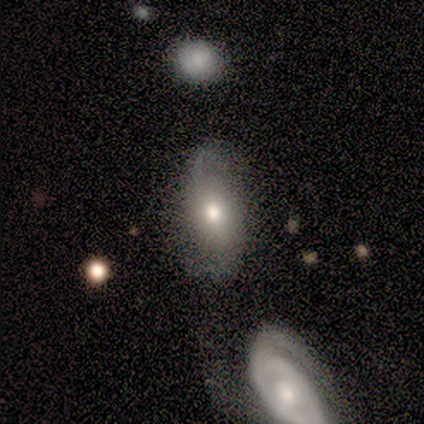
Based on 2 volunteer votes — Smooth or featured? 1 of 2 (50%, tied with featured or disk) said smooth. How rounded? 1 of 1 (100%) said in between. Merging? 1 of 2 (50%, tied with major disturbance) said none.